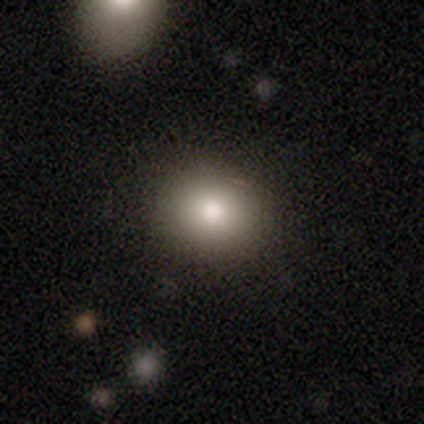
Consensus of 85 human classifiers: This appears to be a smooth galaxy with no disk features (81%) that is round (75%). Merging: none (82%).